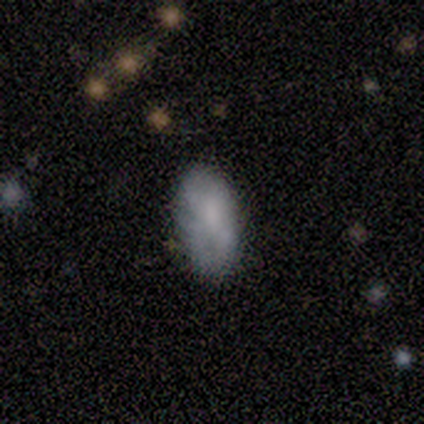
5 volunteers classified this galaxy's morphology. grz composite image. It shows a smooth galaxy with no disk features (40%, tied with featured or disk) that is in between round and cigar-shaped (100%). Merging: none (50%, tied with minor disturbance).